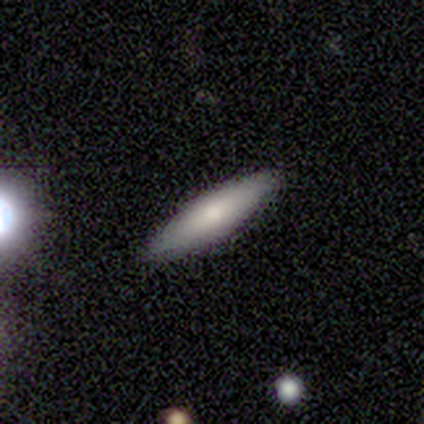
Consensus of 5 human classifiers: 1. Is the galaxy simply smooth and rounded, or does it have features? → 80% smooth, 20% featured or disk, 0% star or artifact.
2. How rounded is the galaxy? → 50% in between (tied), 50% cigar-shaped (tied), 0% round.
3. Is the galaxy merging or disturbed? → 100% none, 0% minor disturbance, 0% major disturbance, 0% merger.